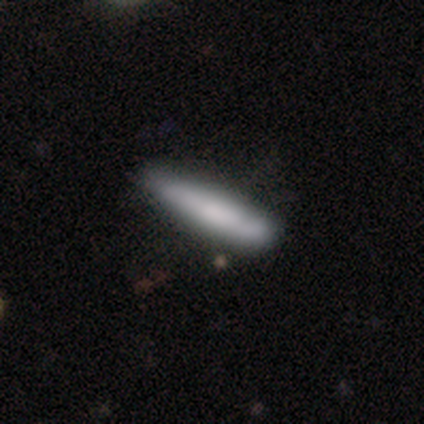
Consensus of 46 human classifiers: Overall: smooth (76%). How rounded: cigar-shaped (83%). Merging: none (67%; minor disturbance 28%).